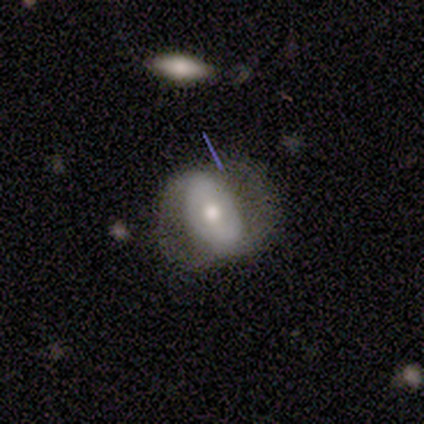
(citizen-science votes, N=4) Overall: featured or disk (100%). Edge-on disk: no (100%). Bar: weak (50%, tied with no). Spiral arms: no (75%). Bulge size: moderate (75%). Merging: none (50%; minor disturbance 25%).